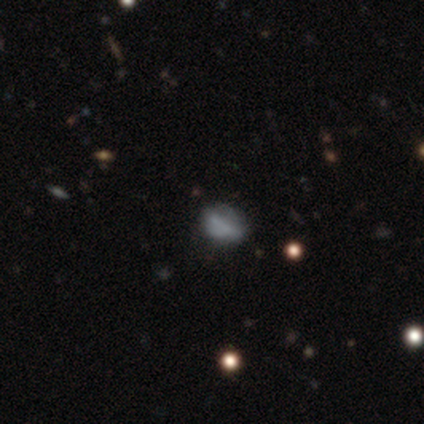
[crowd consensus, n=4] smooth_or_featured: smooth (p=1.00)
how_rounded: in between (p=1.00)
merging: none (p=0.50) [alt: minor disturbance p=0.25]